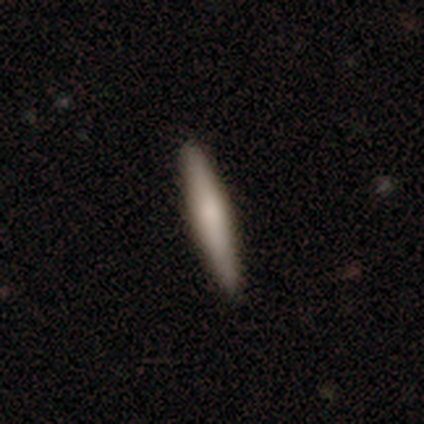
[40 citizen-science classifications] Q: Smooth or featured?
A: smooth (70%); runner-up: featured or disk (22%)
Q: How rounded?
A: cigar-shaped (93%); runner-up: in between (7%)
Q: Merging?
A: none (100%)